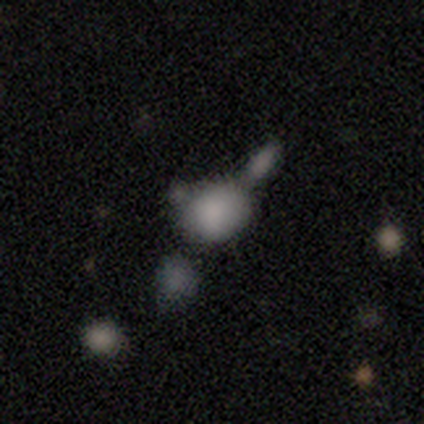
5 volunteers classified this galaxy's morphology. smooth_or_featured: smooth (p=1.00)
how_rounded: round (p=0.60) [alt: in between p=0.40]
merging: merger (p=0.60) [alt: none p=0.40]